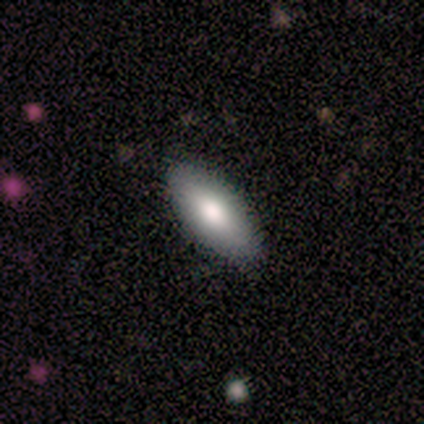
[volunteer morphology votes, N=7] A smooth galaxy with no disk features (86%) that is in between round and cigar-shaped (83%). Merging: none (86%).